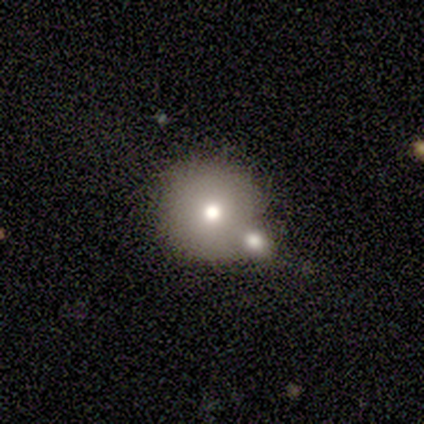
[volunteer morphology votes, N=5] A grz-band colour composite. It shows a smooth galaxy with no disk features (80%) that is round (100%). Merging: none (75%).